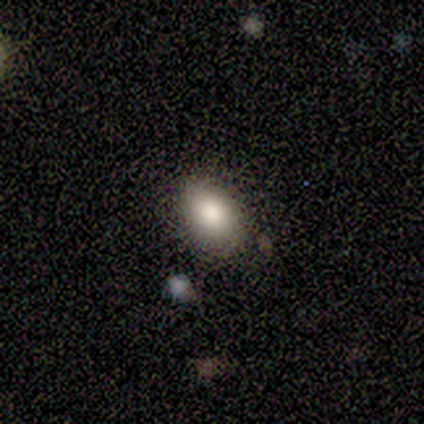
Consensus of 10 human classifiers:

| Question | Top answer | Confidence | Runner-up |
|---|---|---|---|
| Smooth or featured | smooth | 100% | — |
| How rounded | in between | 80% | round (20%) |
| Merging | none | 80% | minor disturbance (10%) |